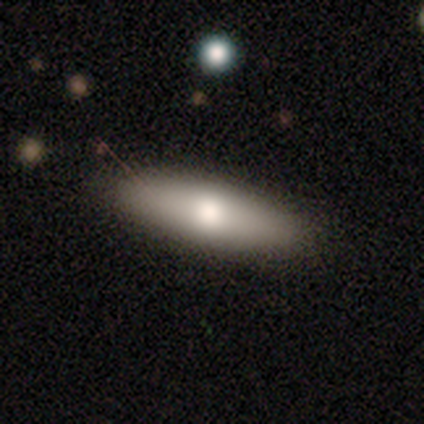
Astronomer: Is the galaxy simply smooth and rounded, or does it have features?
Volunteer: smooth — 71%.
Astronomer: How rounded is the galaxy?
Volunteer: cigar-shaped — 80%.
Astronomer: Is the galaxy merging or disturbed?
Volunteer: none — 67%.